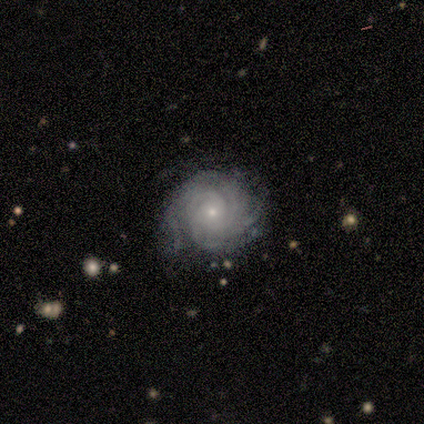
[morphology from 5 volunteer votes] featured or disk 100%, smooth 0%, star or artifact 0%. Down the decision tree: edge-on disk — no (100%); bar — no (80%); spiral arms — yes (100%); spiral arm count — can't tell (60%); spiral winding — tight (80%); bulge size — small (100%); merging — none (60%).